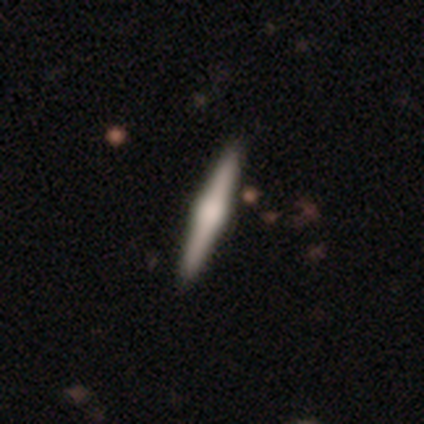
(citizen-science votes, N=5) featured or disk 80%, smooth 20%, star or artifact 0%. Down the decision tree: edge-on disk — yes (100%); edge-on bulge — rounded (75%); merging — none (100%).